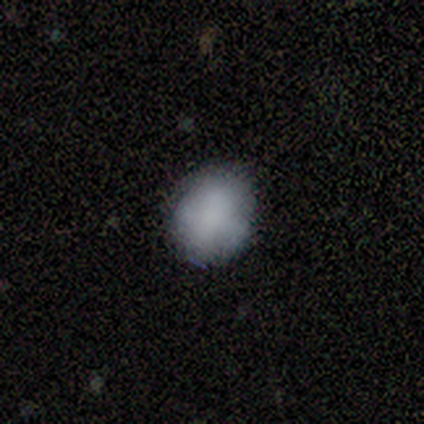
Q: Smooth or featured?
A: smooth (62%); runner-up: featured or disk (25%)
Q: How rounded?
A: round (100%)
Q: Merging?
A: none (71%); runner-up: minor disturbance (29%)